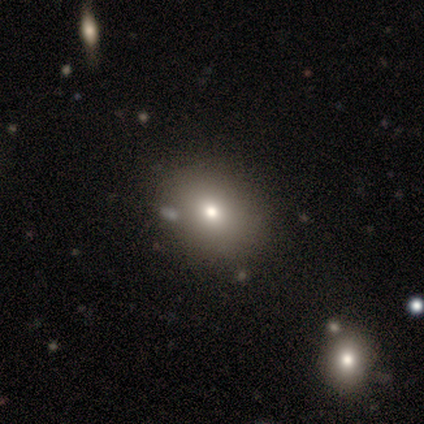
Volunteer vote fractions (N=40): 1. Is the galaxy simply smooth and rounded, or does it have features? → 70% smooth, 18% star or artifact, 12% featured or disk.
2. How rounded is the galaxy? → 61% in between, 39% round, 0% cigar-shaped.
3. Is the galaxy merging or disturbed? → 61% none, 12% merger, 6% minor disturbance, 0% major disturbance.